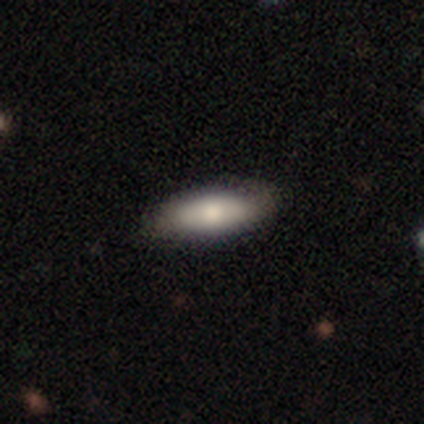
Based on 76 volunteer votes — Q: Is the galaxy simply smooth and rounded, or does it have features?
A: smooth — 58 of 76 (76%).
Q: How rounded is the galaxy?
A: in between — 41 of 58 (71%).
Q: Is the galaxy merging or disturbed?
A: none — 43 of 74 (58%).